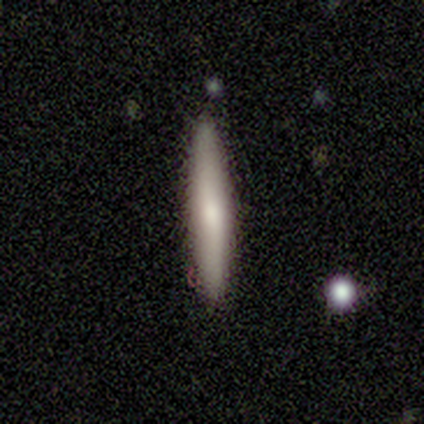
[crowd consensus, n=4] Smooth or featured: smooth — 100%
How rounded: cigar-shaped — 100%
Merging: none — 100%